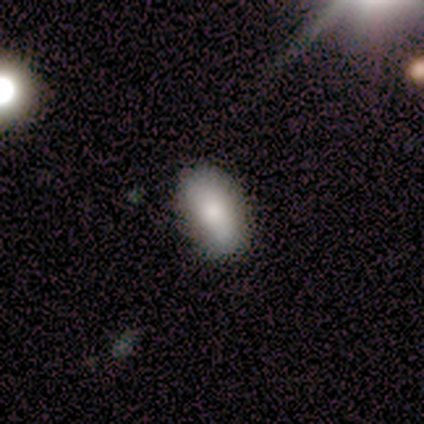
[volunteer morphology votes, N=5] Smooth or featured?
  - smooth: 80% *
  - star or artifact: 20%
  - featured or disk: 0%
How rounded?
  - in between: 100% *
  - round: 0%
  - cigar-shaped: 0%
Merging?
  - none: 100% *
  - minor disturbance: 0%
  - major disturbance: 0%
  - merger: 0%